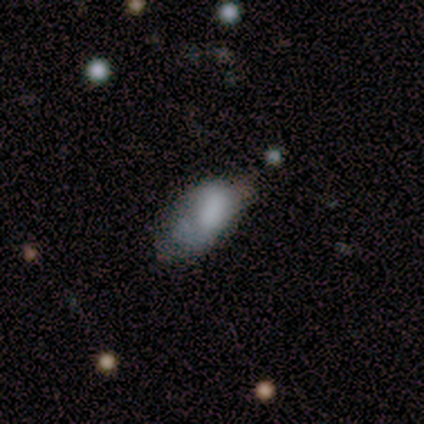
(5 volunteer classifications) Smooth or featured? 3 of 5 (60%) said smooth. How rounded? 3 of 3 (100%) said in between. Merging? 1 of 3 (33%, tied with minor disturbance and major disturbance) said none.